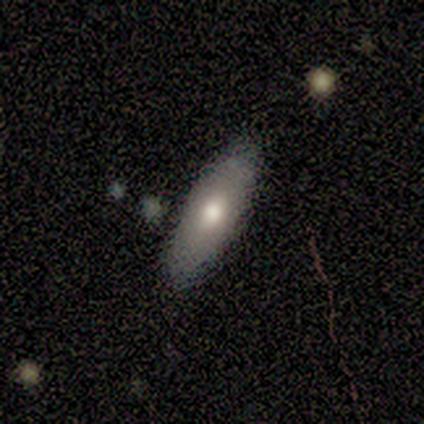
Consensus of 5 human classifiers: A smooth galaxy with no disk features (80%) that is in between round and cigar-shaped (75%). Merging: none (80%).